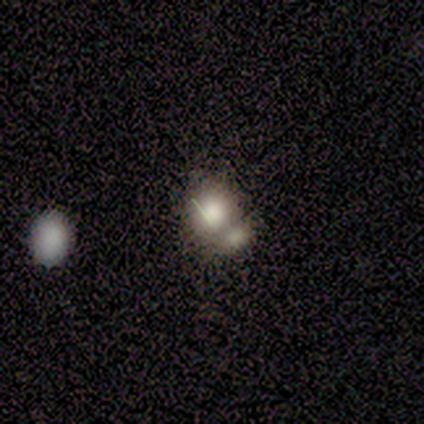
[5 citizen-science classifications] Q: Smooth or featured?
A: smooth (100%)
Q: How rounded?
A: round (80%); runner-up: in between (20%)
Q: Merging?
A: merger (80%); runner-up: none (20%)